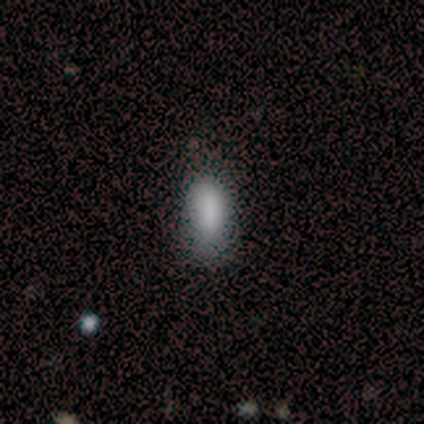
smooth 92%, star or artifact 5%, featured or disk 3%. Down the decision tree: how rounded — in between (89%); merging — none (64%).